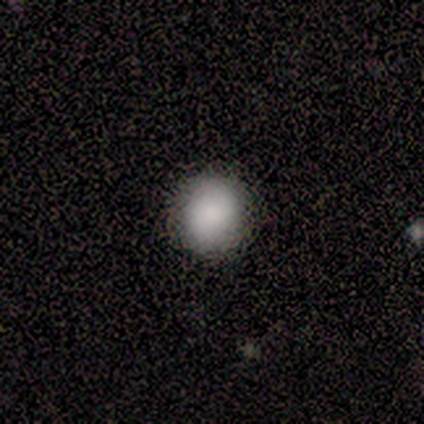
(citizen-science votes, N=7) Overall: smooth (71%). How rounded: round (100%). Merging: none (86%).